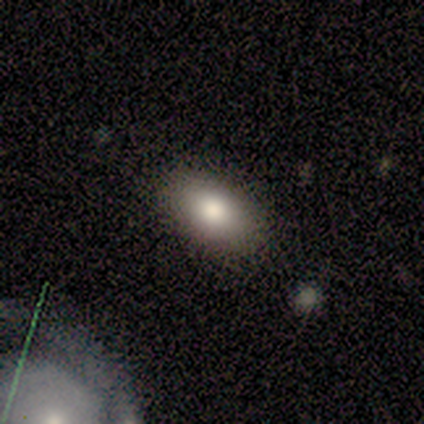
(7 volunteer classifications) Morphology: type=smooth (100%); roundness=in between (100%); merging=none (100%).